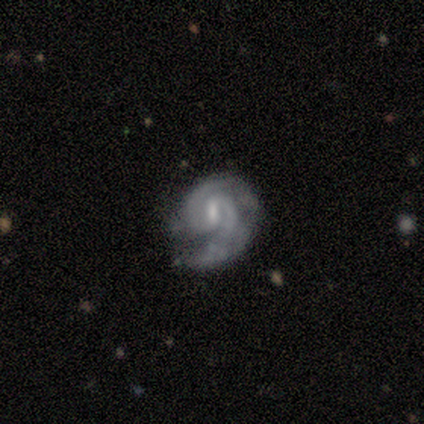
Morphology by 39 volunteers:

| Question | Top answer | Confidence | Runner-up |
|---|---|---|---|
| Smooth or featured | featured or disk | 90% | smooth (8%) |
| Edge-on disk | no | 94% | yes (6%) |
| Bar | weak | 67% | strong (21%) |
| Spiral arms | yes | 88% | no (12%) |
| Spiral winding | tight | 69% | medium (24%) |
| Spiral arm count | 2 | 86% | 1 (10%) |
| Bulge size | small | 61% | none (21%) |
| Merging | minor disturbance | 42% | none (34%) |